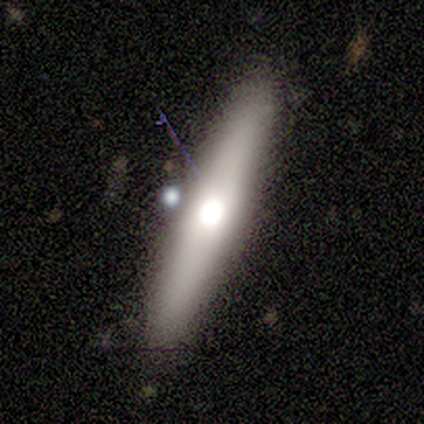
Smooth or featured? featured or disk (60%)
Edge-on disk? yes (100%)
Edge-on bulge? rounded (100%)
Merging? none (100%)